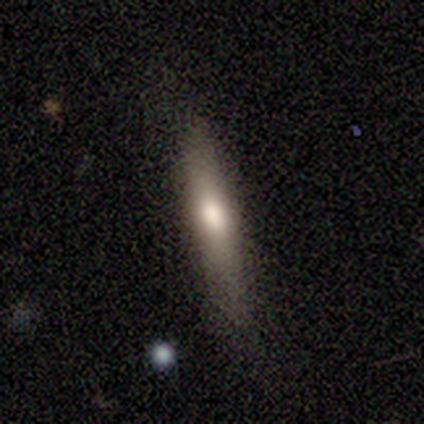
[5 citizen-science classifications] Morphology: type=smooth (80%); roundness=cigar-shaped (75%); merging=none (100%).